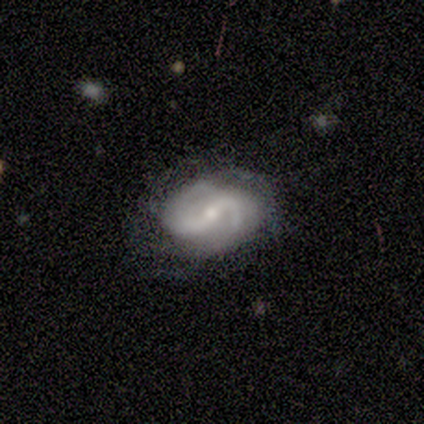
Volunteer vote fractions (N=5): smooth_or_featured: featured or disk (p=0.80) [alt: smooth p=0.20]
disk_edge_on: no (p=1.00)
bar: weak (p=0.50) [alt: strong p=0.25]
has_spiral_arms: yes (p=1.00)
spiral_winding: loose (p=0.50) [alt: tight p=0.25]
spiral_arm_count: 2 (p=1.00)
bulge_size: small (p=0.75) [alt: moderate p=0.25]
merging: minor disturbance (p=0.60) [alt: none p=0.40]